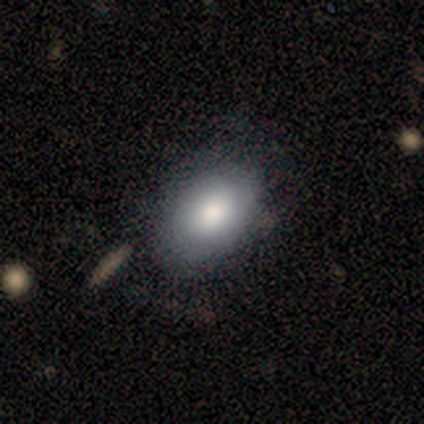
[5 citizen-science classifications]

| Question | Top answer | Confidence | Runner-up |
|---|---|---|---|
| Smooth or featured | smooth | 60% | featured or disk (20%) |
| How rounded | in between | 100% | — |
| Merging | none | 75% | minor disturbance (25%) |